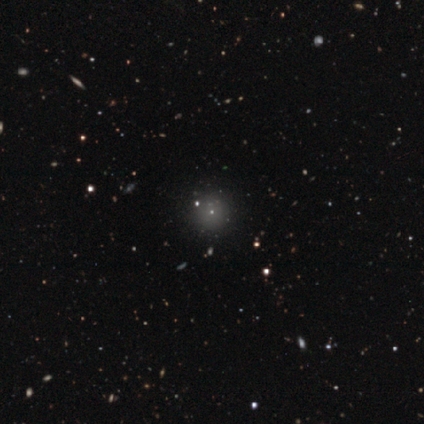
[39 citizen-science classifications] smooth-or-featured: smooth: 49% | star or artifact: 38% | featured or disk: 13%
  how-rounded: round: 100% | in between: 0% | cigar-shaped: 0%
  merging: none: 83% | minor disturbance: 12% | merger: 4% | major disturbance: 0%